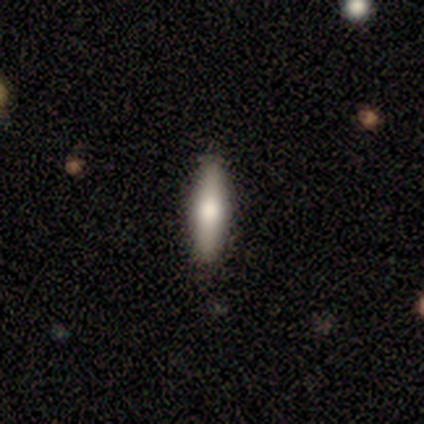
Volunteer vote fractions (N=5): Smooth or featured?
  - smooth: 60% *
  - featured or disk: 40%
  - star or artifact: 0%
How rounded?
  - cigar-shaped: 67% *
  - in between: 33%
  - round: 0%
Merging?
  - none: 100% *
  - minor disturbance: 0%
  - major disturbance: 0%
  - merger: 0%